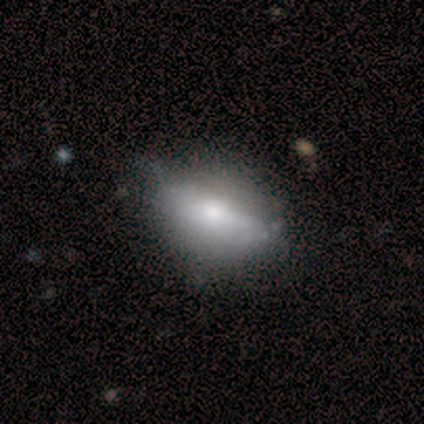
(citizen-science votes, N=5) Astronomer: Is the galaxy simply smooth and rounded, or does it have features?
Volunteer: featured or disk — 60% (runner-up: smooth, 40%).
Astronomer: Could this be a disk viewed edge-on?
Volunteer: no — 100%.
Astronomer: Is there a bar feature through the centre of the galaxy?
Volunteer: no — 67%.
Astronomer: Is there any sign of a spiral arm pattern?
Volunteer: no — 100%.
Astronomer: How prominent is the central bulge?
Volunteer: moderate — 67%.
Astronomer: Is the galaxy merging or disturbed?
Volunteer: none — 40%, tied with minor disturbance at 40%.